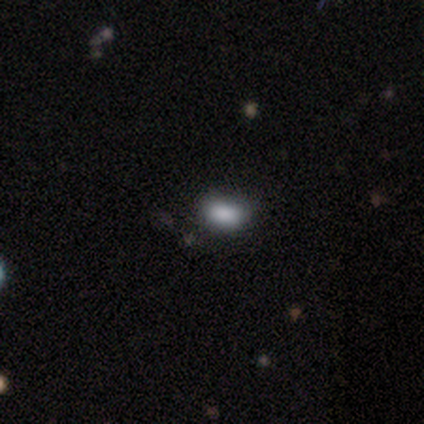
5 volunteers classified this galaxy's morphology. Q: Smooth or featured?
A: star or artifact (60%); runner-up: smooth (40%)